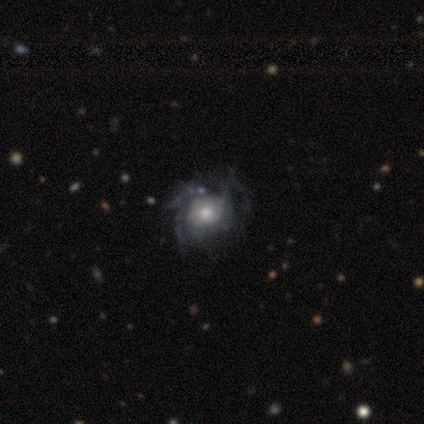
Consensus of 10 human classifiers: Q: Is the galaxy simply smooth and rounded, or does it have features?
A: featured or disk — 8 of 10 (80%).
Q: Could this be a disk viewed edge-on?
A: no — 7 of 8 (88%).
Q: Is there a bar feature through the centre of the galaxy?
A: no — 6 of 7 (86%).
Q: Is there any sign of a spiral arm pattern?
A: yes — 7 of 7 (100%).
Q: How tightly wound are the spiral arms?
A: medium — 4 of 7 (57%).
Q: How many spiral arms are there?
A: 3 — 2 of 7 (29%, tied with can't tell).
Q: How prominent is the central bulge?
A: moderate — 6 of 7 (86%).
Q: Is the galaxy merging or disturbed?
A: none — 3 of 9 (33%, tied with minor disturbance and major disturbance).